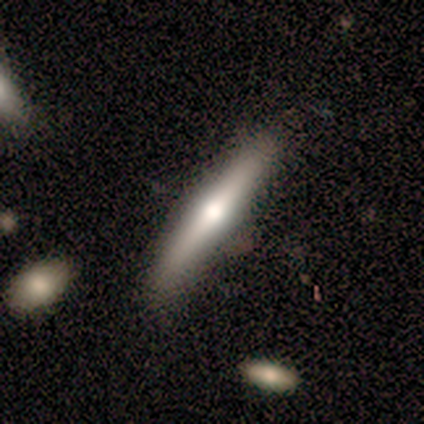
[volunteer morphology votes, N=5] This appears to be a smooth galaxy with no disk features (40%, tied with featured or disk) that is cigar-shaped (100%). Merging: none (100%).